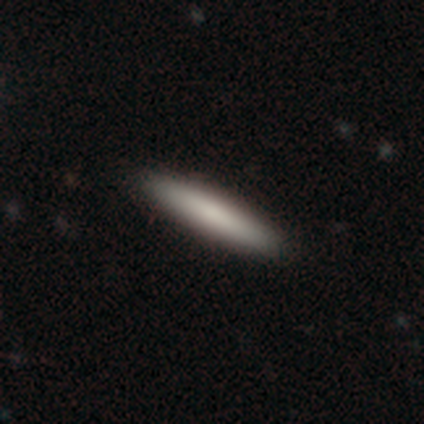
Smooth or featured?
  - smooth: 76% *
  - featured or disk: 21%
  - star or artifact: 2%
How rounded?
  - cigar-shaped: 92% *
  - in between: 8%
  - round: 0%
Merging?
  - none: 47% *
  - merger: 4%
  - minor disturbance: 3%
  - major disturbance: 0%